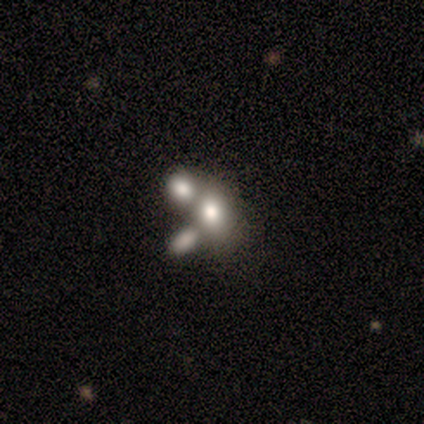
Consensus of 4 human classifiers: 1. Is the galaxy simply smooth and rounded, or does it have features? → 75% smooth, 25% featured or disk, 0% star or artifact.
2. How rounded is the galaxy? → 67% in between, 33% round, 0% cigar-shaped.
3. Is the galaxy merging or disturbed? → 50% none (tied), 50% merger (tied), 0% minor disturbance, 0% major disturbance.